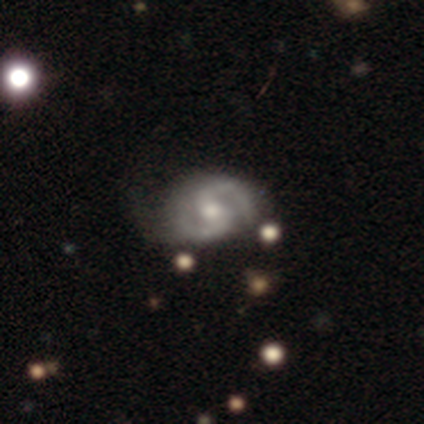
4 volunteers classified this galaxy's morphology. Smooth or featured: featured or disk — 75% (star or artifact — 25%)
Edge-on disk: no — 100%
Bar: no — 67% (weak — 33%)
Spiral arms: yes — 100%
Spiral winding: medium — 100%
Spiral arm count: 2 — 100%
Bulge size: moderate — 67% (large — 33%)
Merging: none — 33% (tied with minor disturbance — 33%; merger — 33%)